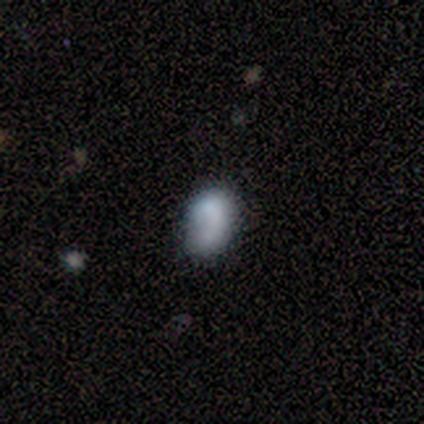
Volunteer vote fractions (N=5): Smooth or featured? 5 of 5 (100%) said smooth. How rounded? 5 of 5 (100%) said in between. Merging? 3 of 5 (60%) said none.